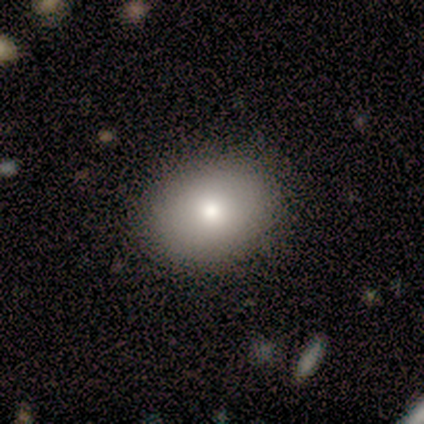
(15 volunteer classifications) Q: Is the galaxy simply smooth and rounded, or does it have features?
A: smooth — 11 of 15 (73%).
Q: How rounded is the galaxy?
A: in between — 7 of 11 (64%).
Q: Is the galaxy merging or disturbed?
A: none — 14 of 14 (100%).